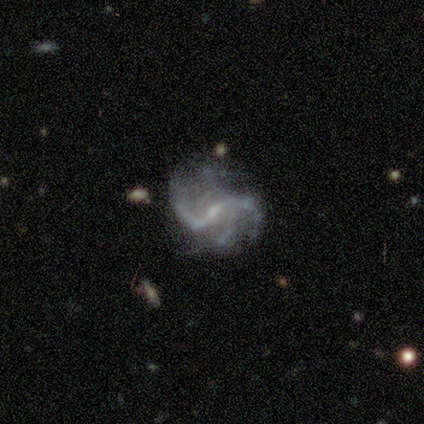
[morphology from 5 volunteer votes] Volunteers were most divided on "bar": weak: 60%, strong: 40%, no: 0%. More confident: smooth or featured — featured or disk (100%); edge-on disk — no (100%); spiral arms — yes (100%); spiral arm count — 4 (80%); spiral winding — loose (60%); bulge size — small (60%); merging — none (60%).